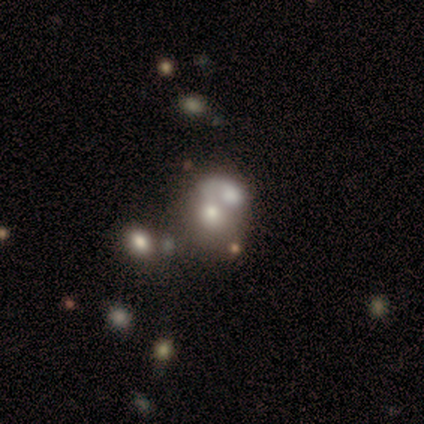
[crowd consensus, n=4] Q: Smooth or featured?
A: smooth (50%); runner-up: featured or disk (25%)
Q: How rounded?
A: round (50%); tied with: in between (50%)
Q: Merging?
A: merger (67%); runner-up: none (33%)